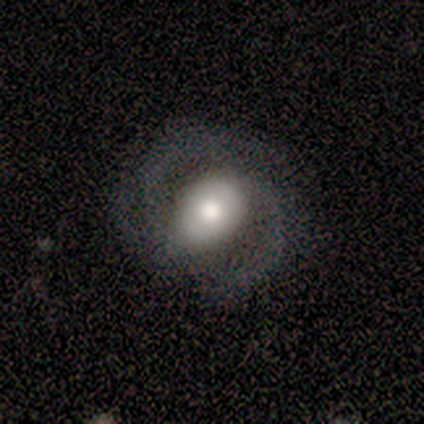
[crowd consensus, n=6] Overall: featured or disk (100%). Edge-on disk: no (100%). Bar: weak (50%, tied with no). Spiral arms: yes (100%). Spiral arm count: 2 (83%). Spiral winding: medium (67%). Bulge size: large (50%; moderate 33%). Merging: none (83%).